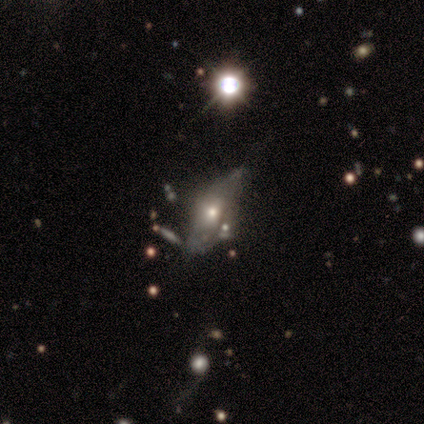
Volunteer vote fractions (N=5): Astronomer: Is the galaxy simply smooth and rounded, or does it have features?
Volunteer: smooth — 60% (runner-up: featured or disk, 40%).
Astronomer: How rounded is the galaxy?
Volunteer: in between — 100%.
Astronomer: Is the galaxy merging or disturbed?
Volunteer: none — 60%.